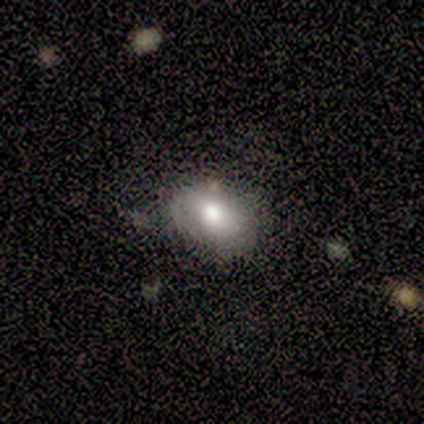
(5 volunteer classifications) Q: Smooth or featured?
A: smooth (100%)
Q: How rounded?
A: in between (100%)
Q: Merging?
A: none (60%); runner-up: minor disturbance (40%)